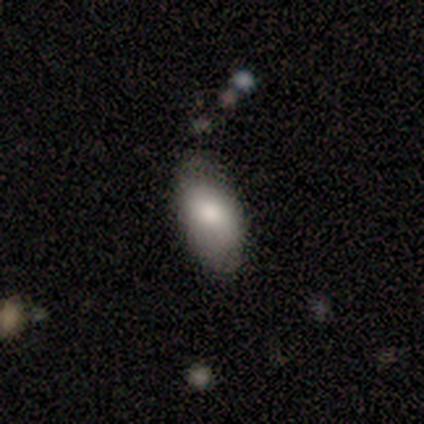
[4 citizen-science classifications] Smooth or featured? 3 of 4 (75%) said smooth. How rounded? 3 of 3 (100%) said in between. Merging? 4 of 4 (100%) said minor disturbance.